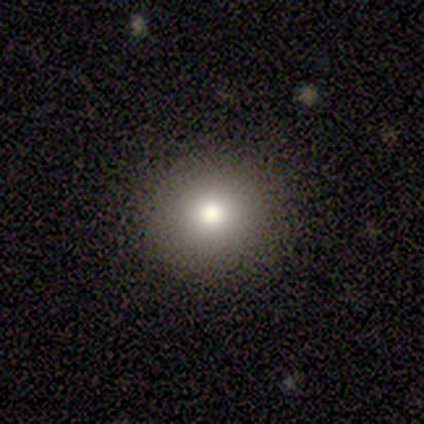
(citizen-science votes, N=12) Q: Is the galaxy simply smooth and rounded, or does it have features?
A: smooth — 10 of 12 (83%).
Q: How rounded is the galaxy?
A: round — 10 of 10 (100%).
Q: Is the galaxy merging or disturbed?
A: none — 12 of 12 (100%).